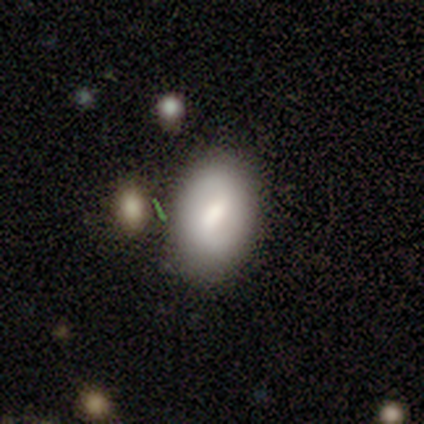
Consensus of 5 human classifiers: Overall: featured or disk (60%; smooth 40%). Edge-on disk: no (100%). Bar: weak (67%; strong 33%). Spiral arms: yes (67%; no 33%). Spiral arm count: 2 (50%, tied with can't tell). Spiral winding: medium (50%, tied with loose). Bulge size: moderate (100%). Merging: none (80%).